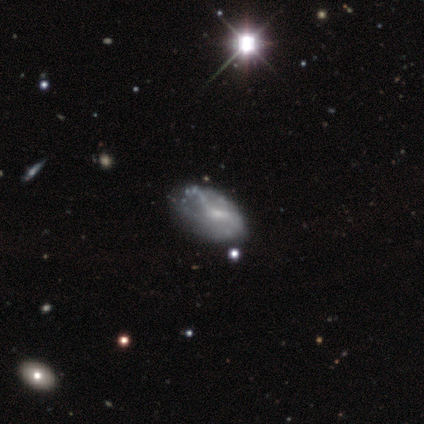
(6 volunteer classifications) Volunteers were most divided on "merging": none: 60%, major disturbance: 40%, minor disturbance: 0%, merger: 0%. More confident: edge-on disk — no (100%); spiral arms — no (100%); bulge size — small (100%); bar — no (75%); smooth or featured — featured or disk (67%).